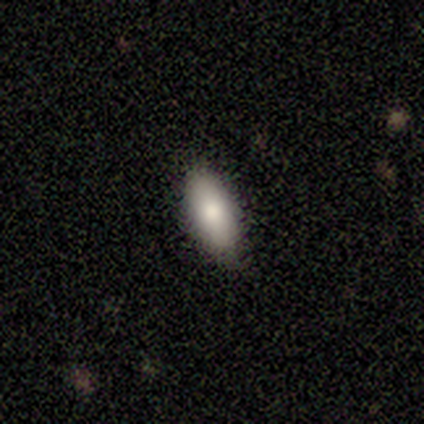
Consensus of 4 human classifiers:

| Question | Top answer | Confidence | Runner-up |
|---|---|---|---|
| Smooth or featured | smooth | 75% | featured or disk (25%) |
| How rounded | cigar-shaped | 67% | in between (33%) |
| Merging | none | 100% | — |